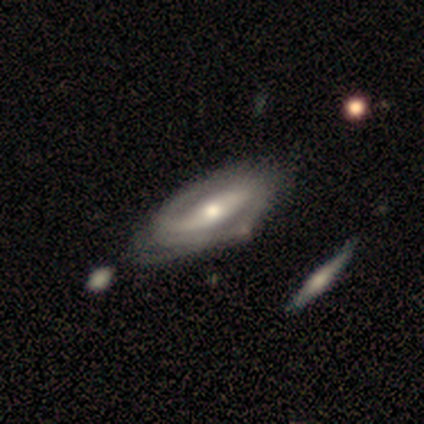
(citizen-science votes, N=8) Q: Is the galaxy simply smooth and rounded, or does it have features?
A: featured or disk — 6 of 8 (75%).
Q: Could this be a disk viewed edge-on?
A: no — 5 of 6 (83%).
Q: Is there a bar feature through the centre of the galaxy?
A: weak — 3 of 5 (60%).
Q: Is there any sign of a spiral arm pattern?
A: yes — 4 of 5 (80%).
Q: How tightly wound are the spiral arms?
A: medium — 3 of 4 (75%).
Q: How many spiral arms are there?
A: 2 — 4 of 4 (100%).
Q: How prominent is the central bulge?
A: moderate — 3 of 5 (60%).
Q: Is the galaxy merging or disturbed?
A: none — 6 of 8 (75%).